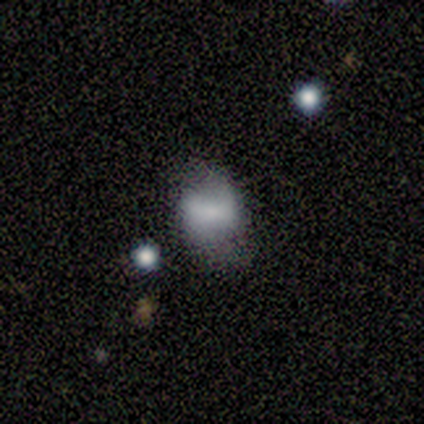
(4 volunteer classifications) Smooth or featured? smooth (75%)
How rounded? in between (67%)
Merging? none (75%)